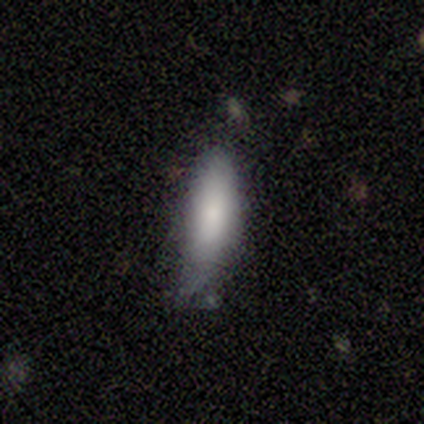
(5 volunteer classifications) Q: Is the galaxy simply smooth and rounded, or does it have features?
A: smooth — 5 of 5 (100%).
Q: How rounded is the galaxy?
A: cigar-shaped — 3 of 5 (60%).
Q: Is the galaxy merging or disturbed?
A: minor disturbance — 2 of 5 (40%, tied with major disturbance).